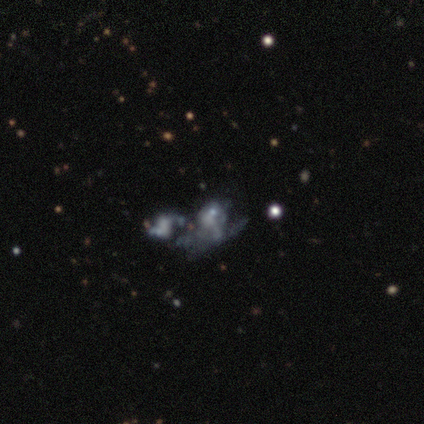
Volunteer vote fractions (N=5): Morphology: type=featured or disk (80%); edge-on=no (100%); bar=no (100%); spiral arms=no (100%); bulge=none (75%); merging=major disturbance (50%, tied with merger).